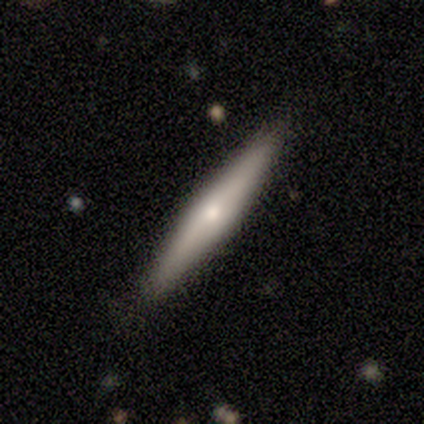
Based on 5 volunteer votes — This appears to be a featured or disk galaxy (60%) viewed edge-on (100%) with a rounded central bulge (67%). Merging: none (100%).